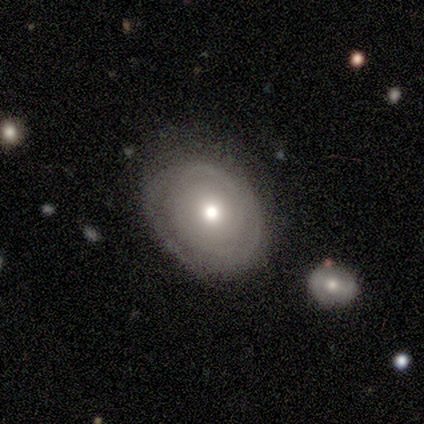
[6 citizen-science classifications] smooth-or-featured: smooth: 50% (tied) | featured or disk: 50% (tied) | star or artifact: 0%
  how-rounded: round: 67% | in between: 33% | cigar-shaped: 0%
  merging: none: 67% | minor disturbance: 33% | major disturbance: 0% | merger: 0%